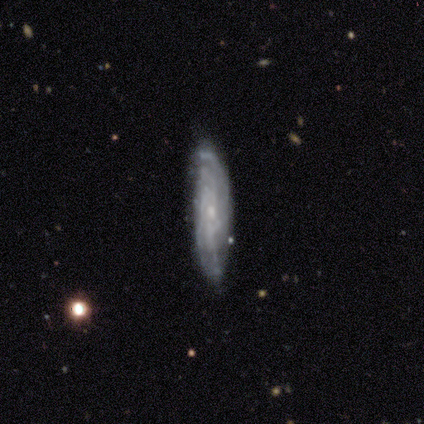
Volunteers were most divided on "spiral winding": tight: 67%, medium: 33%, loose: 0%. More confident: bar — no (100%); spiral arms — yes (100%); bulge size — small (100%); merging — none (100%); smooth or featured — featured or disk (80%); edge-on disk — no (75%); spiral arm count — can't tell (67%).